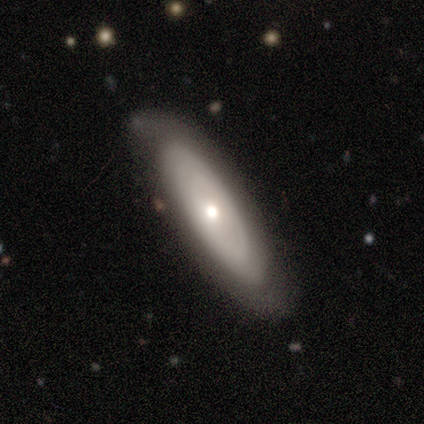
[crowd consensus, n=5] Overall: smooth (80%). How rounded: cigar-shaped (50%; round 25%). Merging: none (80%).